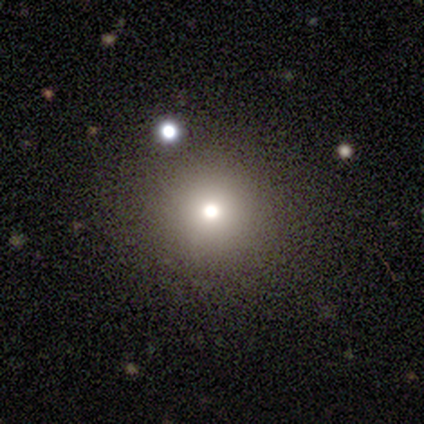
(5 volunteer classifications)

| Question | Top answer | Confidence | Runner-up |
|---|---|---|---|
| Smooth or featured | smooth | 100% | — |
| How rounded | round | 100% | — |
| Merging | none | 100% | — |